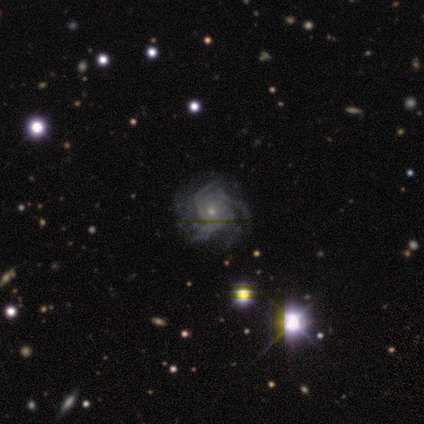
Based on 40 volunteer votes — A featured or disk galaxy (90%) with no bar (89%), 4 (35%) tight (50%) spiral arms (94%) and a small central bulge (81%). Merging: none (53%).